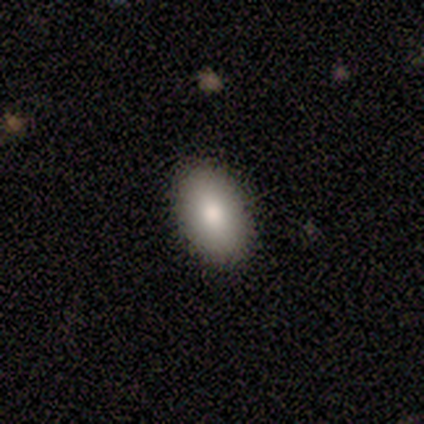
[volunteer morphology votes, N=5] Overall: smooth (80%). How rounded: in between (100%). Merging: none (100%).